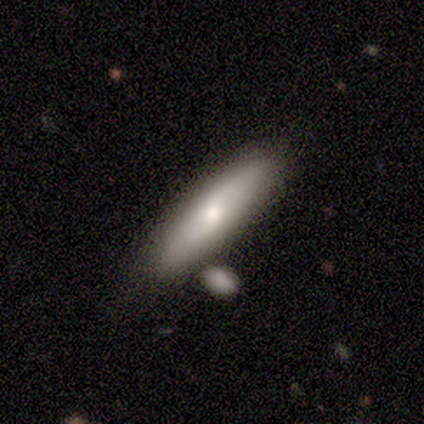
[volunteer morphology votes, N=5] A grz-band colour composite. It shows a featured or disk galaxy (60%) with a weak bar (50%, tied with no), 2 (100%) loose (100%) spiral arms (50%, tied with no) and a large central bulge (50%, tied with moderate). Merging: none (60%).